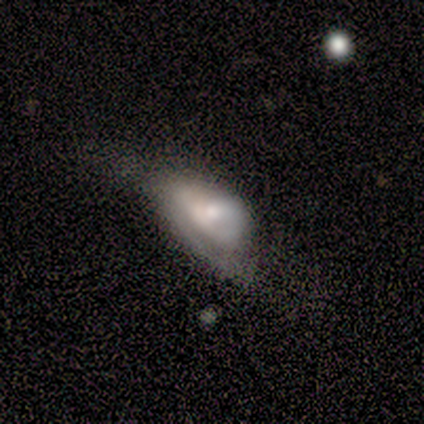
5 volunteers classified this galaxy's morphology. Volunteers were most divided on "merging" (2-way tie): none: 40%, major disturbance: 40%, minor disturbance: 20%, merger: 0%. More confident: smooth or featured — smooth (100%); how rounded — in between (100%).